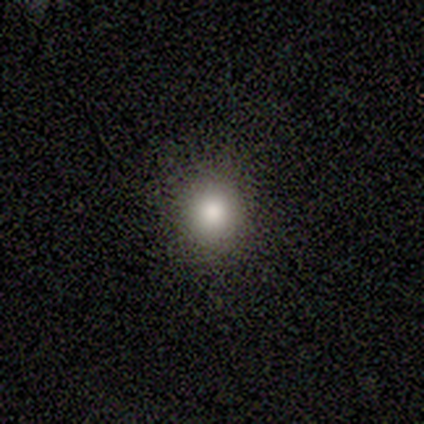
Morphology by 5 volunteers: Q: Smooth or featured?
A: smooth (60%); runner-up: star or artifact (40%)
Q: How rounded?
A: round (100%)
Q: Merging?
A: none (100%)